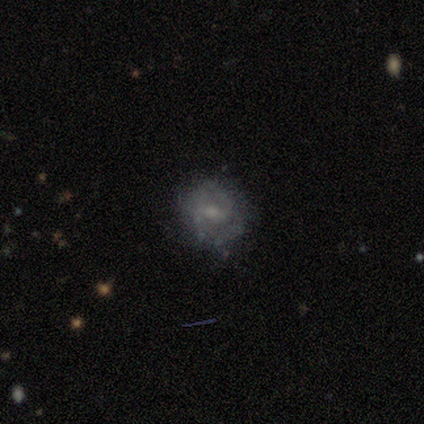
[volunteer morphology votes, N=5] type=smooth (60%); roundness=in between (67%); merging=none (75%).